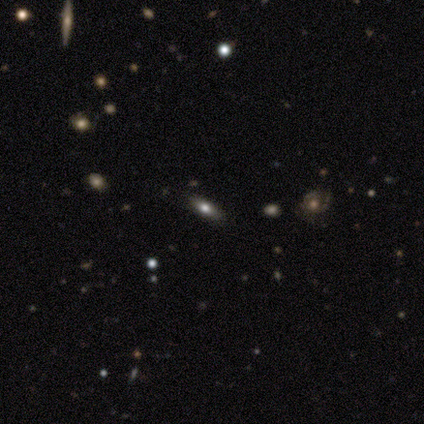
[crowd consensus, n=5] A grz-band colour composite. It shows a smooth galaxy with no disk features (80%) that is in between round and cigar-shaped (50%, tied with cigar-shaped). Merging: none (100%).